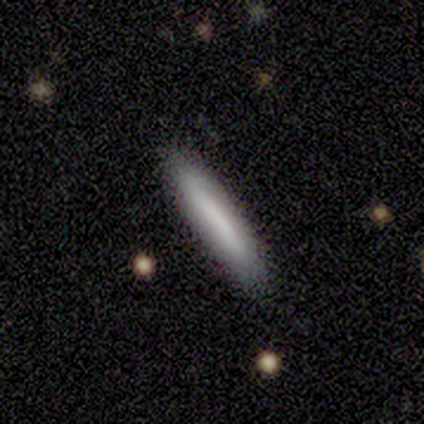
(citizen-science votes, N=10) Smooth or featured: smooth — 70% (featured or disk — 30%)
How rounded: cigar-shaped — 100%
Merging: none — 90% (minor disturbance — 10%)